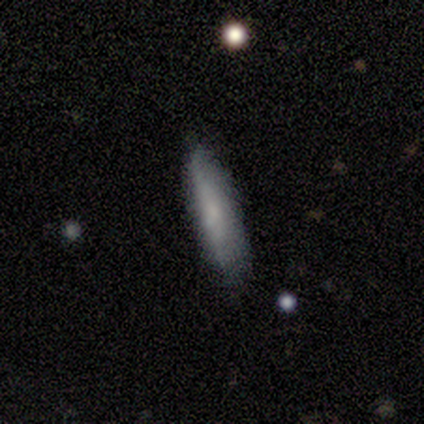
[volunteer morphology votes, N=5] smooth_or_featured: smooth (p=0.80) [alt: featured or disk p=0.20]
how_rounded: cigar-shaped (p=0.75) [alt: in between p=0.25]
merging: none (p=1.00)